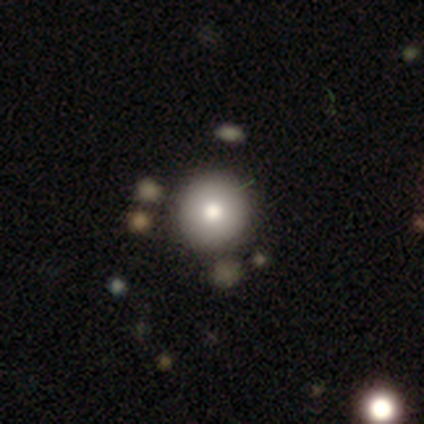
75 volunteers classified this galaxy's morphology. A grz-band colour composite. It shows a smooth galaxy with no disk features (83%) that is round (98%). Merging: none (54%).